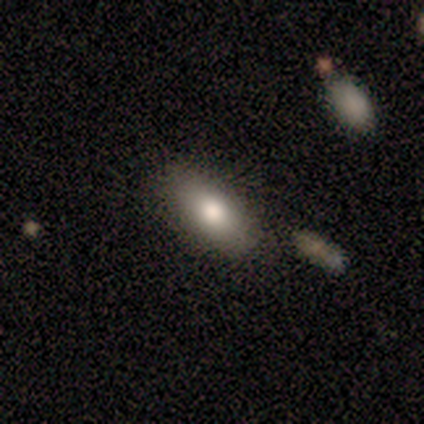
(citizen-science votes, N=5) Smooth or featured: smooth — 100%
How rounded: in between — 60% (round — 20%)
Merging: none — 100%